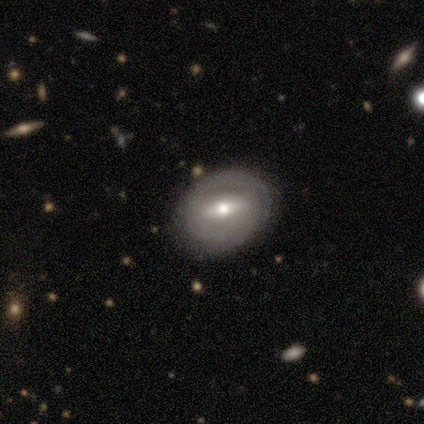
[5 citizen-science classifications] Smooth or featured? featured or disk (100%)
Edge-on disk? no (80%)
Bar? strong (75%)
Spiral arms? yes (75%)
Spiral winding? tight (100%)
Spiral arm count? can't tell (67%)
Bulge size? moderate (75%)
Merging? none (80%)